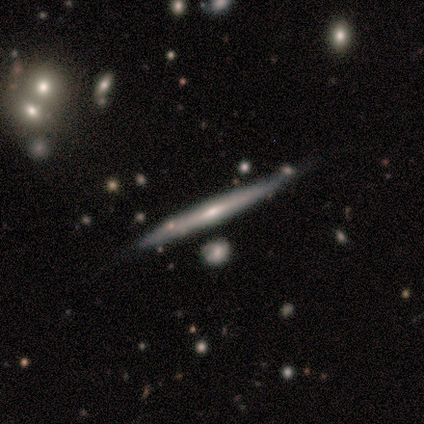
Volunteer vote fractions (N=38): Smooth or featured? featured or disk (63%)
Edge-on disk? yes (100%)
Edge-on bulge? rounded (50%)
Merging? none (74%)